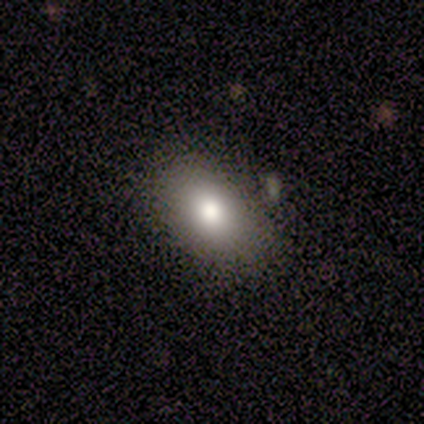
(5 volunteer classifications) Smooth or featured: smooth — 80% (star or artifact — 20%)
How rounded: in between — 75% (round — 25%)
Merging: none — 100%